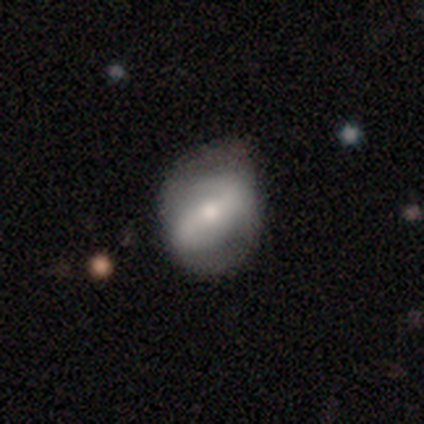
This is possibly a featured or disk galaxy (59%). It is clearly not viewed edge-on (96%). Bar: marginally weak (43%). Spiral arm pattern: likely yes (78%). Spiral arm count: clearly 2 (95%). Spiral winding: possibly medium (48%). Central bulge: possibly moderate (51%). Merging: possibly none (51%).